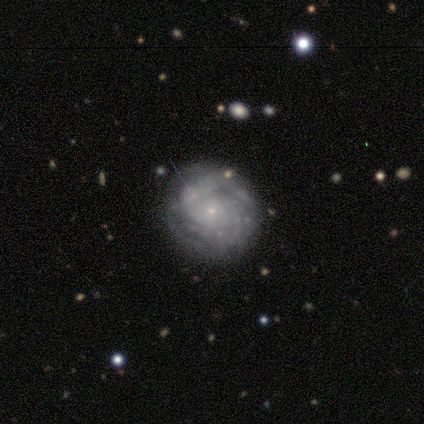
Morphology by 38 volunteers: Q: Smooth or featured?
A: featured or disk (89%); runner-up: smooth (8%)
Q: Edge-on disk?
A: no (97%); runner-up: yes (3%)
Q: Bar?
A: no (88%); runner-up: strong (6%)
Q: Spiral arms?
A: yes (100%)
Q: Spiral winding?
A: tight (64%); runner-up: medium (36%)
Q: Spiral arm count?
A: can't tell (48%); runner-up: more than 4 (18%)
Q: Bulge size?
A: small (91%); runner-up: moderate (6%)
Q: Merging?
A: none (73%); runner-up: major disturbance (14%)